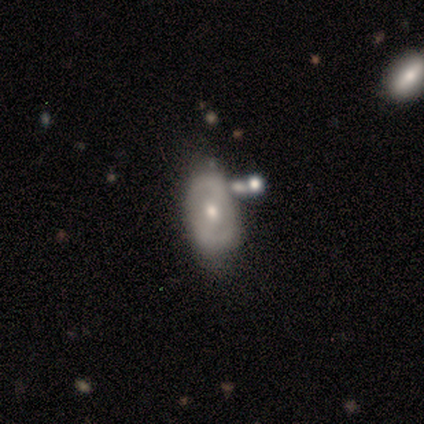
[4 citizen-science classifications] Morphology: type=featured or disk (75%); edge-on=no (100%); bar=weak (100%); spiral arms=no (67%); bulge=dominant (33%, tied with moderate and small); merging=minor disturbance (50%, tied with merger).